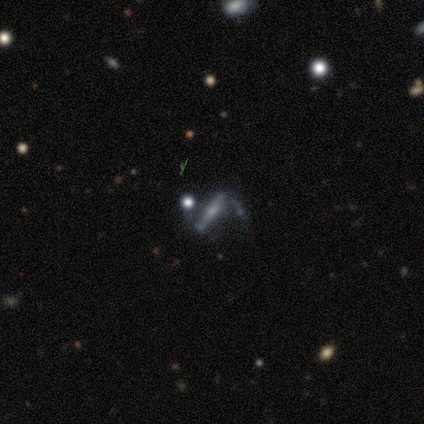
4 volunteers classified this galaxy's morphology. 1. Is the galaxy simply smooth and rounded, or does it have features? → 50% featured or disk, 25% smooth, 25% star or artifact.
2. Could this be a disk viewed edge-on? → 100% yes, 0% no.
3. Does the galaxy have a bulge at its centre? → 50% none (tied), 50% rounded (tied), 0% boxy.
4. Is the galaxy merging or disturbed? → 67% minor disturbance, 33% merger, 0% none, 0% major disturbance.